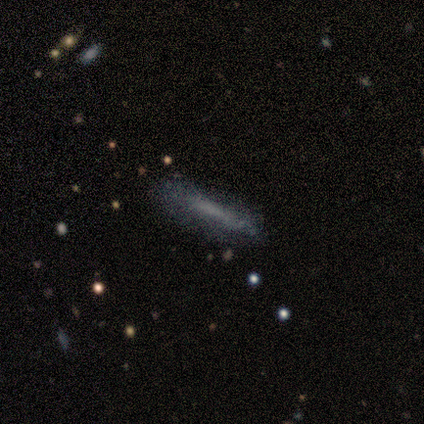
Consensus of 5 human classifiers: Smooth or featured: smooth — 40% (tied with featured or disk — 40%)
How rounded: cigar-shaped — 100%
Merging: none — 50% (minor disturbance — 25%)